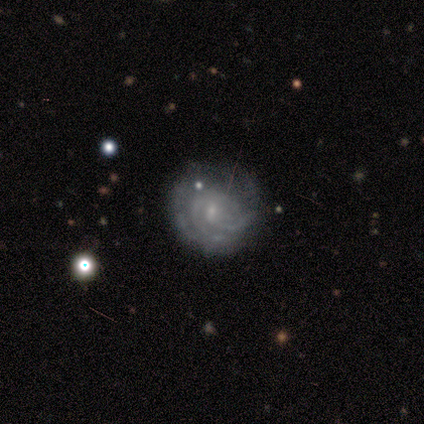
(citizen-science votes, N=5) Smooth or featured: featured or disk — 100%
Edge-on disk: no — 100%
Bar: strong — 40% (tied with no — 40%)
Spiral arms: yes — 100%
Spiral winding: tight — 80% (medium — 20%)
Spiral arm count: can't tell — 40% (2 — 20%)
Bulge size: small — 100%
Merging: none — 100%